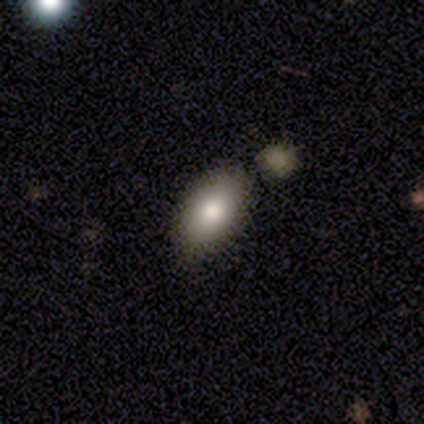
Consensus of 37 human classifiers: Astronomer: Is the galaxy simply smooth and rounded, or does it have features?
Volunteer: smooth — 95%.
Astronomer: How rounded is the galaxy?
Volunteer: in between — 89%.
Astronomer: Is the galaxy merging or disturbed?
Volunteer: none — 76%.